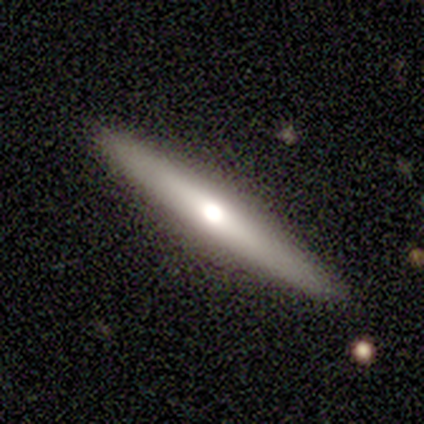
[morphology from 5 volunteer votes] Smooth or featured? featured or disk (60%)
Edge-on disk? yes (100%)
Edge-on bulge? rounded (67%)
Merging? none (100%)